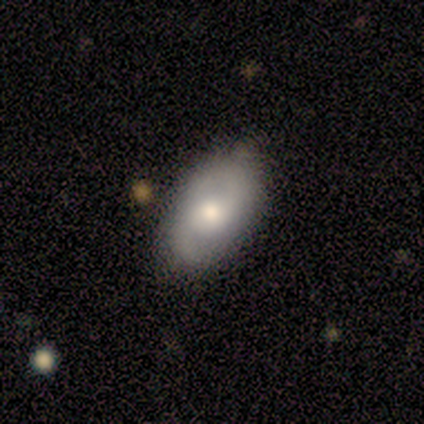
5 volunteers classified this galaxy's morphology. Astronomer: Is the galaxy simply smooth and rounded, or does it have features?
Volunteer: smooth — 60% (runner-up: featured or disk, 40%).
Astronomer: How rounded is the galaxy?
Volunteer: in between — 100%.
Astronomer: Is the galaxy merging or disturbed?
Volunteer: none — 80%.